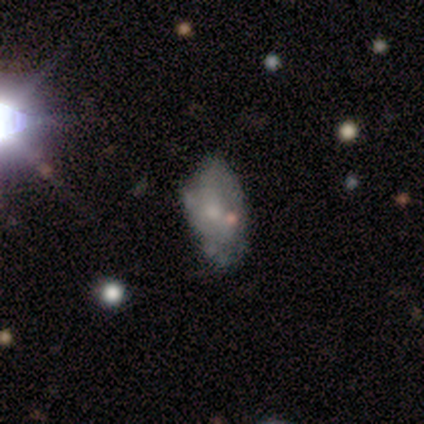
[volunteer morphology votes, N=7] Smooth or featured? 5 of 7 (71%) said featured or disk. Edge-on disk? 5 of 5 (100%) said no. Bar? 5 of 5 (100%) said no. Spiral arms? 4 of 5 (80%) said no. Bulge size? 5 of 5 (100%) said small. Merging? 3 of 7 (43%, tied with minor disturbance) said none.